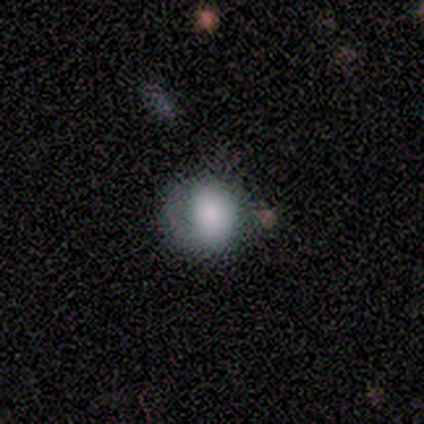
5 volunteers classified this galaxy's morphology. This is clearly a smooth galaxy (80%). How rounded: likely round (75%). Merging: possibly none (50%).